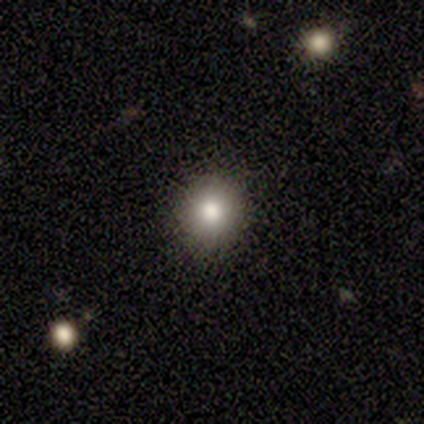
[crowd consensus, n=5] smooth 80%, featured or disk 20%, star or artifact 0%. Down the decision tree: how rounded — round (50%, tied with in between); merging — none (40%, tied with minor disturbance).